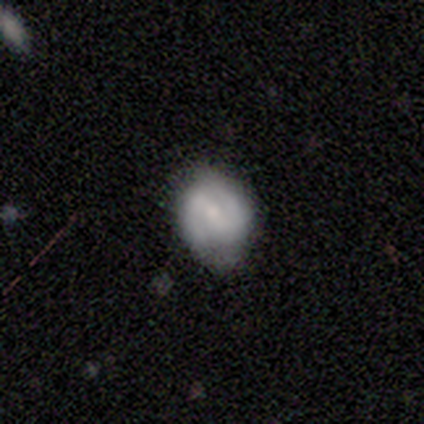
Overall: featured or disk (75%). Edge-on disk: no (100%). Bar: strong (33%, tied with weak and no). Spiral arms: yes (100%). Spiral arm count: 2 (100%). Spiral winding: tight (100%). Bulge size: moderate (100%). Merging: none (75%).